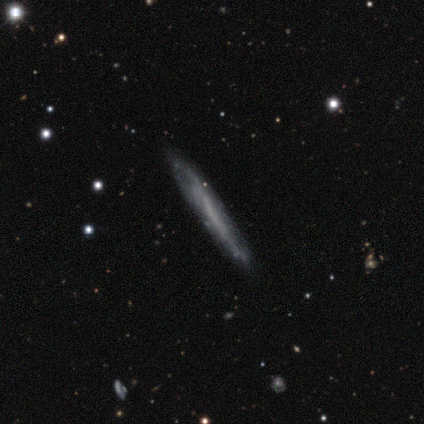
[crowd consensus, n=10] Q: Smooth or featured?
A: featured or disk (70%); runner-up: smooth (30%)
Q: Edge-on disk?
A: yes (71%); runner-up: no (29%)
Q: Edge-on bulge?
A: none (100%)
Q: Merging?
A: none (70%); runner-up: minor disturbance (30%)